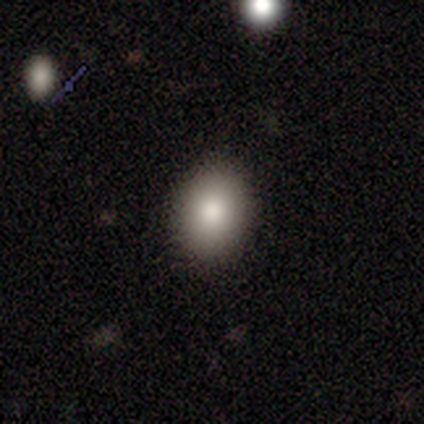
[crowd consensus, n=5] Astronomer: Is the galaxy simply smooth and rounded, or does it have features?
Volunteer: smooth — 100%.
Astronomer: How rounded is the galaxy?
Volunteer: round — 60% (runner-up: in between, 40%).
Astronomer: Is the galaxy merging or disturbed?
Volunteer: none — 100%.